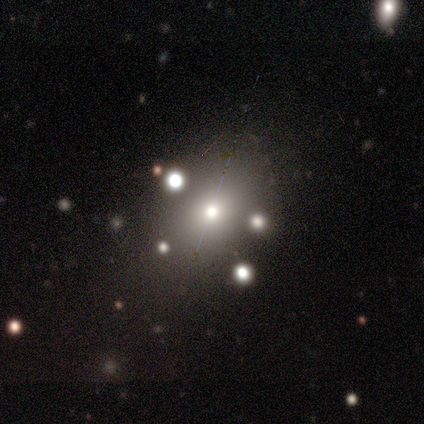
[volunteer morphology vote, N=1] Overall: star or artifact (100%).